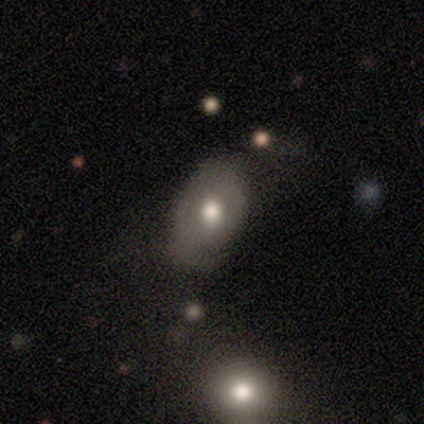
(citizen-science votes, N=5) Smooth or featured? smooth (100%)
How rounded? in between (100%)
Merging? none (60%)